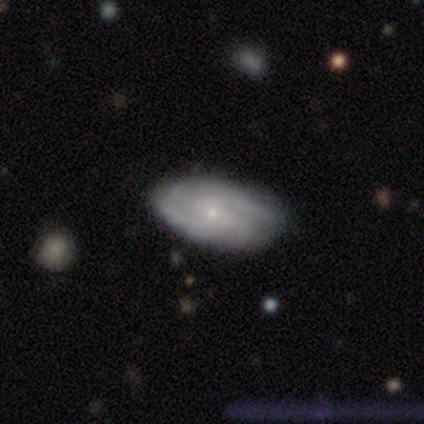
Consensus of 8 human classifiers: This is likely a featured or disk galaxy (62%). It is clearly not viewed edge-on (80%). Bar: clearly no (100%). Spiral arm pattern: likely yes (75%). Spiral arm count: clearly 2 (100%). Spiral winding: likely tight (67%). Central bulge: possibly moderate (50%, tied with small). Merging: possibly none (57%).